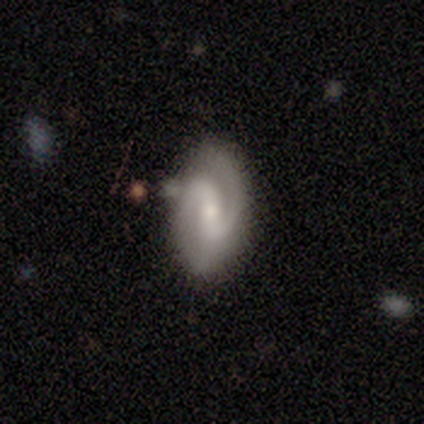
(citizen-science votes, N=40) Smooth or featured?
  - featured or disk: 92% *
  - smooth: 5%
  - star or artifact: 2%
Edge-on disk?
  - no: 97% *
  - yes: 3%
Bar?
  - weak: 47% *
  - strong: 28%
  - no: 25%
Spiral arms?
  - yes: 97% *
  - no: 3%
Spiral winding?
  - medium: 60% *
  - tight: 31%
  - loose: 9%
Spiral arm count?
  - 2: 86% *
  - can't tell: 9%
  - 1: 3%
  - 3: 3%
  - 4: 0%
  - more than 4: 0%
Bulge size?
  - small: 64% *
  - moderate: 28%
  - large: 6%
  - none: 3%
  - dominant: 0%
Merging?
  - none: 77% *
  - minor disturbance: 13%
  - major disturbance: 5%
  - merger: 5%